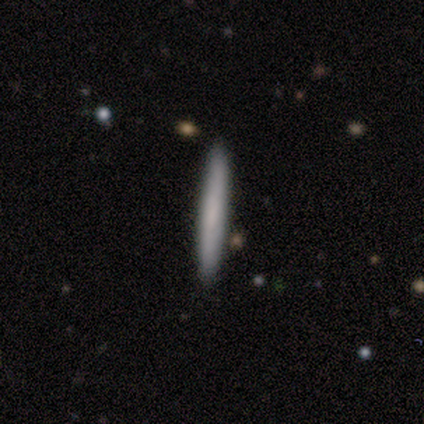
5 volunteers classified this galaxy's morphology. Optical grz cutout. It shows a smooth galaxy with no disk features (60%) that is cigar-shaped (100%). Merging: none (100%).